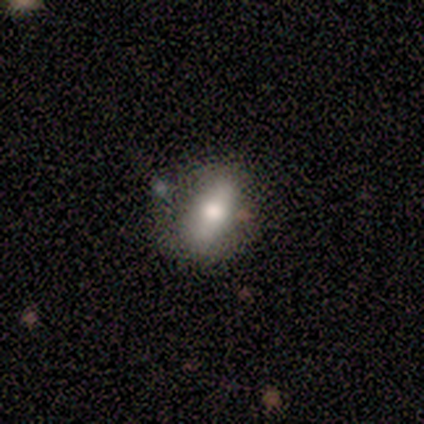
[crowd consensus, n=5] featured or disk 60%, smooth 40%, star or artifact 0%. Down the decision tree: edge-on disk — no (100%); bar — weak (67%); spiral arms — no (100%); bulge size — moderate (67%); merging — none (80%).